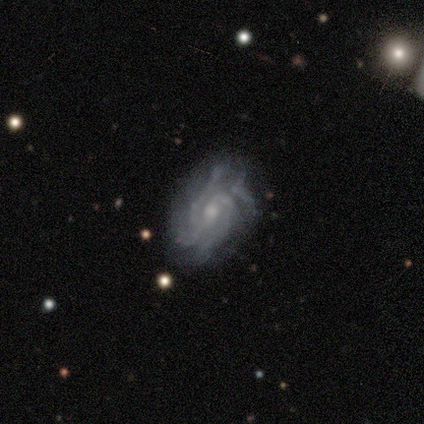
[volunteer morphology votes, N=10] Smooth or featured? 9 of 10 (90%) said featured or disk. Edge-on disk? 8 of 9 (89%) said no. Bar? 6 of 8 (75%) said weak. Spiral arms? 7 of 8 (88%) said yes. Spiral winding? 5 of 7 (71%) said tight. Spiral arm count? 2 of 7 (29%, tied with 4 and more than 4) said 3. Bulge size? 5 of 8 (62%) said moderate. Merging? 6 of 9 (67%) said none.